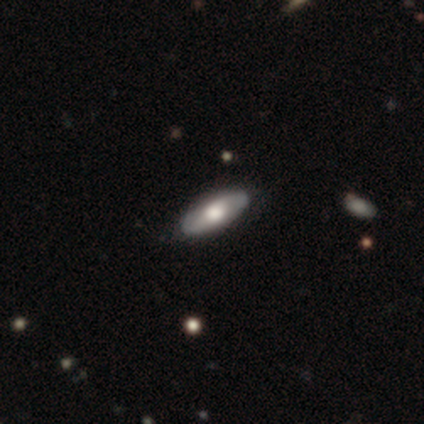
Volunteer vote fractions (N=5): Q: Smooth or featured?
A: smooth (60%); runner-up: featured or disk (40%)
Q: How rounded?
A: in between (100%)
Q: Merging?
A: none (80%); runner-up: major disturbance (20%)